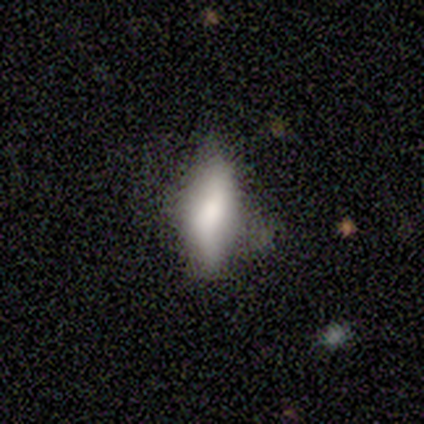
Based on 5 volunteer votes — smooth_or_featured: smooth (p=0.80) [alt: featured or disk p=0.20]
how_rounded: in between (p=1.00)
merging: none (p=0.40) [tied with: minor disturbance p=0.40]